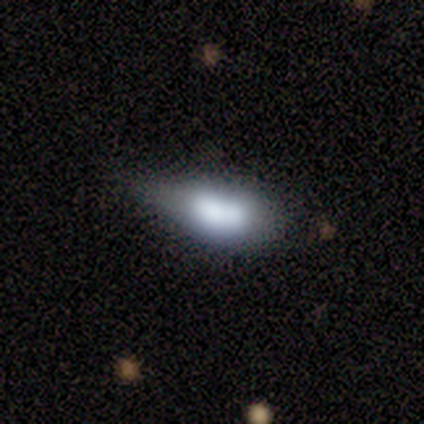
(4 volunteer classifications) Smooth or featured?
  - smooth: 75% *
  - featured or disk: 25%
  - star or artifact: 0%
How rounded?
  - in between: 100% *
  - round: 0%
  - cigar-shaped: 0%
Merging?
  - minor disturbance: 75% *
  - merger: 25%
  - none: 0%
  - major disturbance: 0%